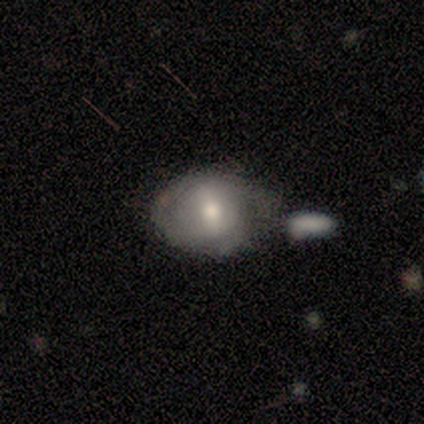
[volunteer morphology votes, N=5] Volunteers were most divided on "bar" (2-way tie): strong: 50%, weak: 50%, no: 0%. More confident: edge-on disk — no (100%); bulge size — moderate (100%); smooth or featured — featured or disk (80%); merging — minor disturbance (80%); spiral arms — no (75%).